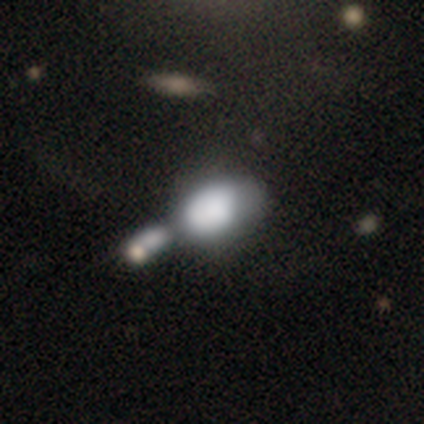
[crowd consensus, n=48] A smooth galaxy with no disk features (67%) that is in between round and cigar-shaped (81%).

Vote fractions:
- Smooth or featured? smooth: 67% / featured or disk: 23% / star or artifact: 10%
- How rounded? in between: 81% / round: 16% / cigar-shaped: 3%
- Merging? merger: 60% / minor disturbance: 21% / none: 12% / major disturbance: 7%